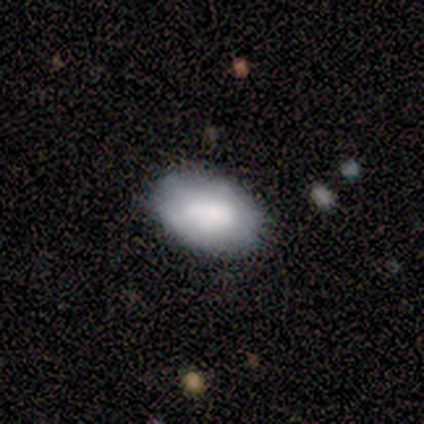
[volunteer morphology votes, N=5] Smooth or featured? 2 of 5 (40%, tied with featured or disk) said smooth. How rounded? 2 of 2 (100%) said in between. Merging? 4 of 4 (100%) said none.